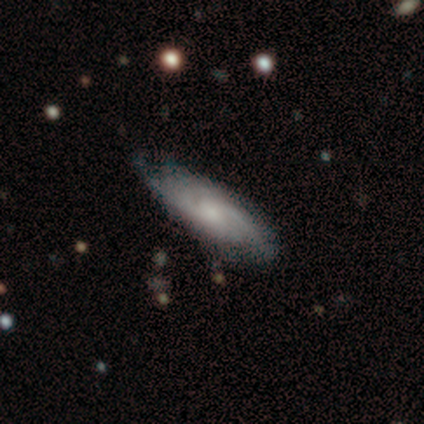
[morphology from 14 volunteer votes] Volunteers were most divided on "spiral arm count" (3-way tie): 2: 29%, 3: 29%, can't tell: 29%, more than 4: 14%, 1: 0%, 4: 0%. Remaining: spiral arms — yes (100%); merging — none (79%); smooth or featured — featured or disk (71%); spiral winding — tight (71%); edge-on disk — no (70%); bar — weak (57%); bulge size — small (43%).